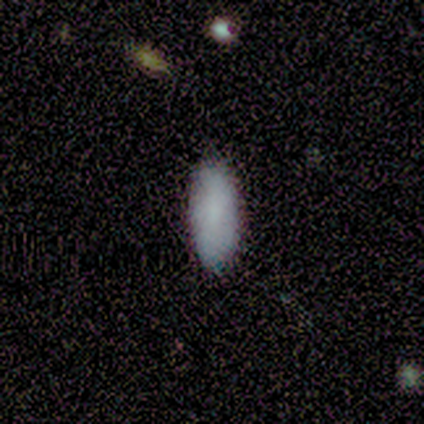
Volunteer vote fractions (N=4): Smooth or featured: smooth — 100%
How rounded: in between — 75% (cigar-shaped — 25%)
Merging: none — 75% (minor disturbance — 25%)